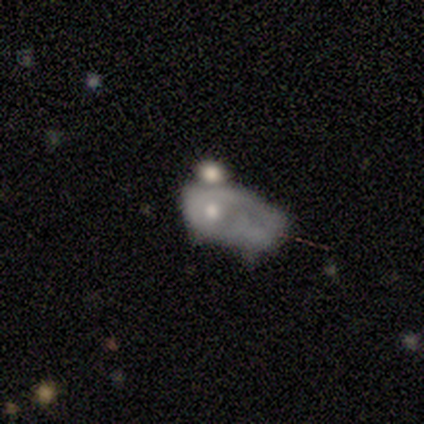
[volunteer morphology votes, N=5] smooth_or_featured: featured or disk (p=0.60) [alt: smooth p=0.40]
disk_edge_on: no (p=1.00)
bar: no (p=1.00)
has_spiral_arms: no (p=1.00)
bulge_size: small (p=0.67) [alt: moderate p=0.33]
merging: major disturbance (p=0.60) [alt: merger p=0.40]